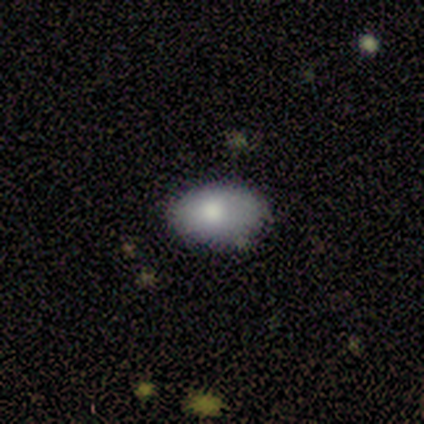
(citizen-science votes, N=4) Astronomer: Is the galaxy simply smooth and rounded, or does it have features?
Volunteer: smooth — 75%.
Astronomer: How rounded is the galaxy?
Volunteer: in between — 100%.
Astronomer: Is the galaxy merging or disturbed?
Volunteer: minor disturbance — 100%.